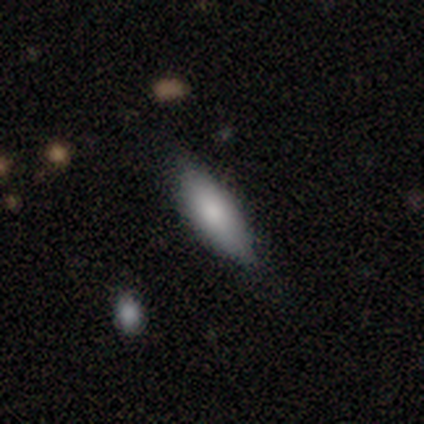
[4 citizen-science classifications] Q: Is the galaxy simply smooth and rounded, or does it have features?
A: smooth — 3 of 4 (75%).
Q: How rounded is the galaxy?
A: in between — 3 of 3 (100%).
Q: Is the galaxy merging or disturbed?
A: none — 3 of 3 (100%).